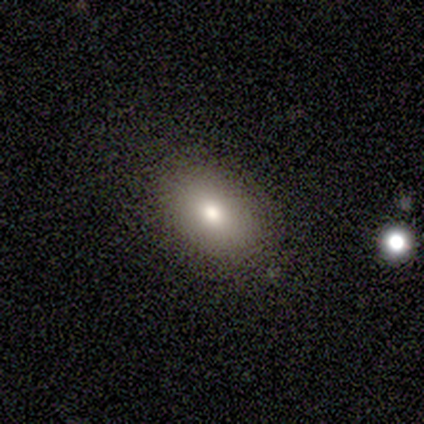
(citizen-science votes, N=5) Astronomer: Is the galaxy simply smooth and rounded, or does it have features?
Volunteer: smooth — 100%.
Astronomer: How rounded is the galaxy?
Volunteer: in between — 100%.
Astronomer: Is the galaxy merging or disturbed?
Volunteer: none — 100%.